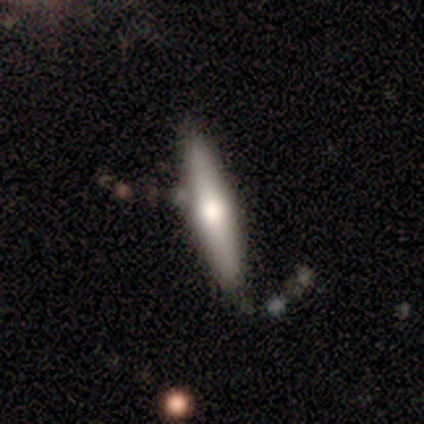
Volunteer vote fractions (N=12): smooth_or_featured: featured or disk (p=0.67) [alt: smooth p=0.33]
disk_edge_on: yes (p=1.00)
edge_on_bulge: rounded (p=0.88) [alt: boxy p=0.12]
merging: none (p=0.83) [alt: minor disturbance p=0.08]